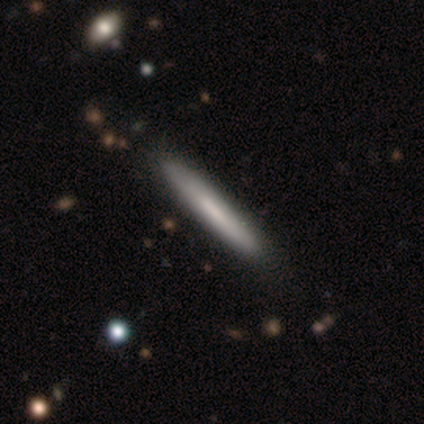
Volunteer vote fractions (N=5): smooth 60%, featured or disk 20%, star or artifact 20%. Down the decision tree: how rounded — cigar-shaped (100%); merging — none (100%).